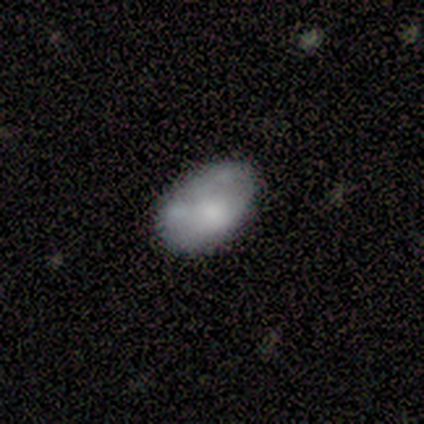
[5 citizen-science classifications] Volunteers were most divided on "merging": none: 60%, minor disturbance: 40%, major disturbance: 0%, merger: 0%. More confident: how rounded — in between (100%); smooth or featured — smooth (80%).